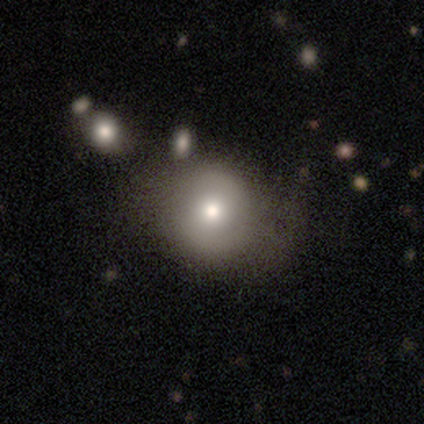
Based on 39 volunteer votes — Morphology: type=smooth (64%); roundness=round (80%); merging=none (55%).